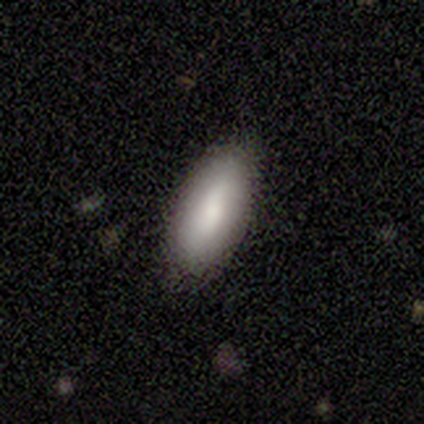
A smooth galaxy with no disk features (80%) that is in between round and cigar-shaped (100%). Merging: none (60%).